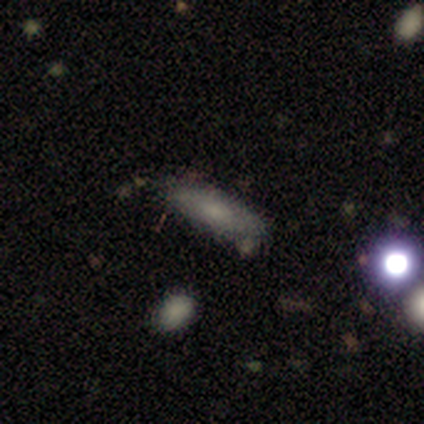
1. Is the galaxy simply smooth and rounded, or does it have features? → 86% smooth, 14% featured or disk, 0% star or artifact.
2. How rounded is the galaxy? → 67% in between, 33% cigar-shaped, 0% round.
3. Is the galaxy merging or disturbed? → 86% none, 14% minor disturbance, 0% major disturbance, 0% merger.